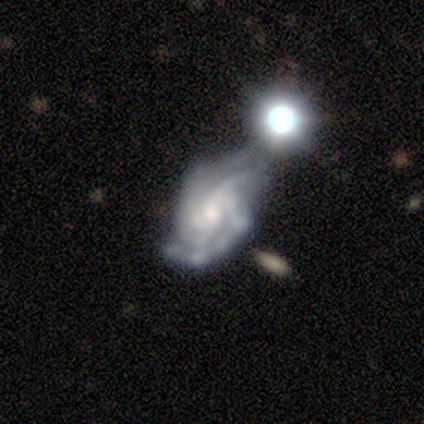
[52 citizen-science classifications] Overall: featured or disk (96%). Edge-on disk: no (100%). Bar: no (60%; weak 24%). Spiral arms: yes (94%). Spiral arm count: 4 (32%; 3 30%). Spiral winding: medium (47%; tight 45%). Bulge size: small (62%; moderate 36%). Merging: none (31%; minor disturbance 27%).